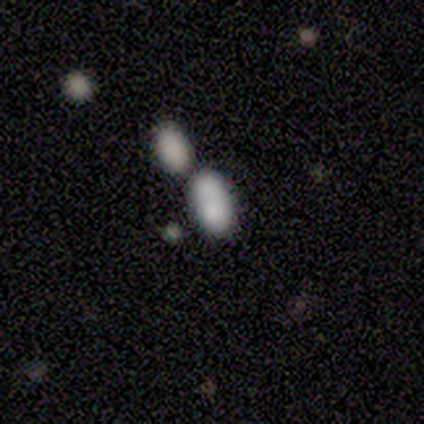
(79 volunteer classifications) Volunteers were most divided on "merging": merger: 64%, none: 20%, major disturbance: 3%, minor disturbance: 0%. More confident: how rounded — in between (95%); smooth or featured — smooth (84%).